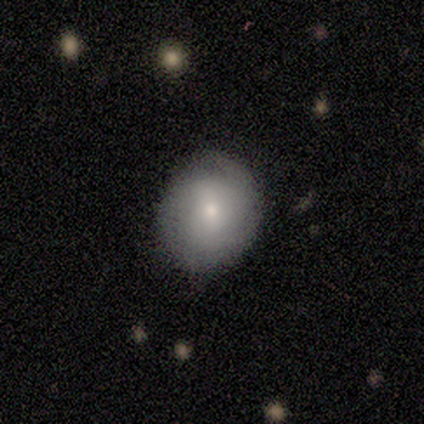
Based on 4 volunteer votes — smooth_or_featured: smooth (p=1.00)
how_rounded: round (p=0.50) [tied with: in between p=0.50]
merging: none (p=0.75) [alt: minor disturbance p=0.25]